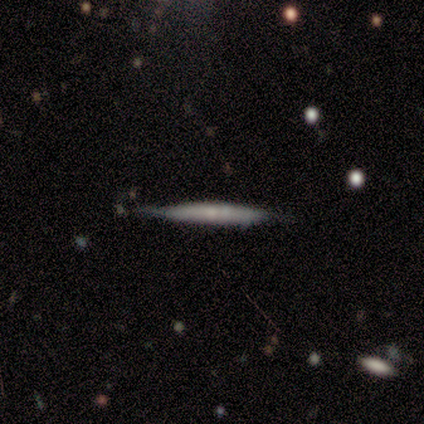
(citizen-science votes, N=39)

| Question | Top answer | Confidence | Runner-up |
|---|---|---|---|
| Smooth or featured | featured or disk | 49% | smooth (46%) |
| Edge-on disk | yes | 95% | no (5%) |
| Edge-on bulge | none | 61% | rounded (33%) |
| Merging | none | 84% | minor disturbance (16%) |